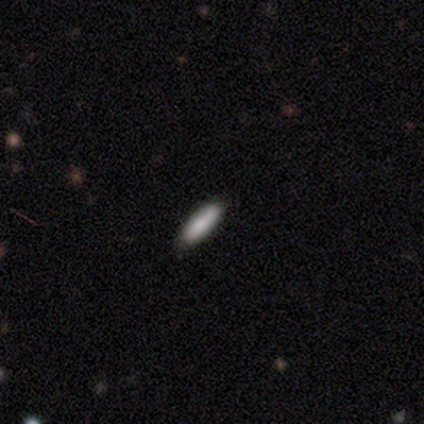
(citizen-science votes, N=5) Q: Smooth or featured?
A: smooth (100%)
Q: How rounded?
A: cigar-shaped (80%); runner-up: in between (20%)
Q: Merging?
A: none (80%); runner-up: minor disturbance (20%)